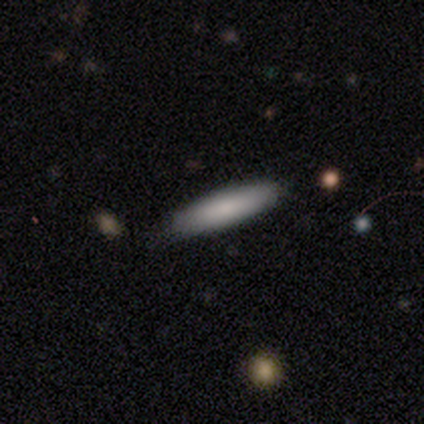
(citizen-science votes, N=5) Smooth or featured?
  - smooth: 100% *
  - featured or disk: 0%
  - star or artifact: 0%
How rounded?
  - cigar-shaped: 80% *
  - in between: 20%
  - round: 0%
Merging?
  - none: 80% *
  - minor disturbance: 20%
  - major disturbance: 0%
  - merger: 0%